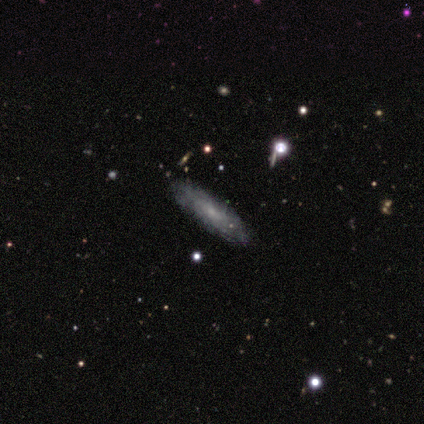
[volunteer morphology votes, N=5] Smooth or featured? 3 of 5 (60%) said smooth. How rounded? 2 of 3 (67%) said cigar-shaped. Merging? 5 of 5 (100%) said none.